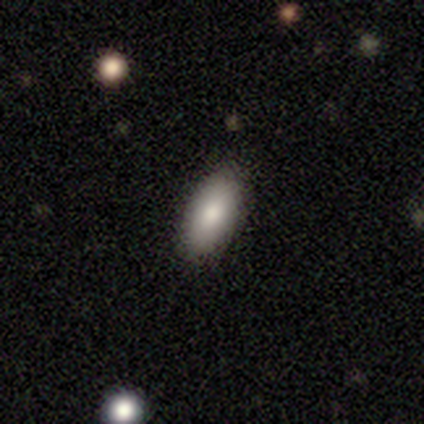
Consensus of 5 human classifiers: Smooth or featured?
  - smooth: 100% *
  - featured or disk: 0%
  - star or artifact: 0%
How rounded?
  - in between: 100% *
  - round: 0%
  - cigar-shaped: 0%
Merging?
  - none: 100% *
  - minor disturbance: 0%
  - major disturbance: 0%
  - merger: 0%